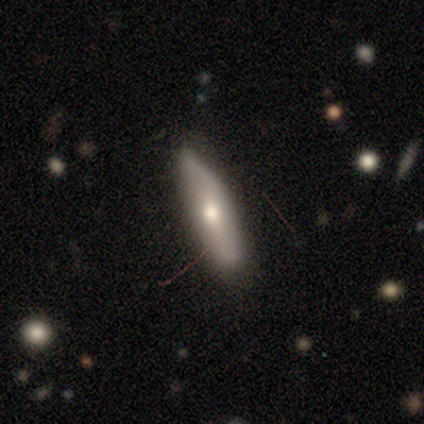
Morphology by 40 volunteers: type=smooth (57%); roundness=cigar-shaped (65%); merging=none (76%).